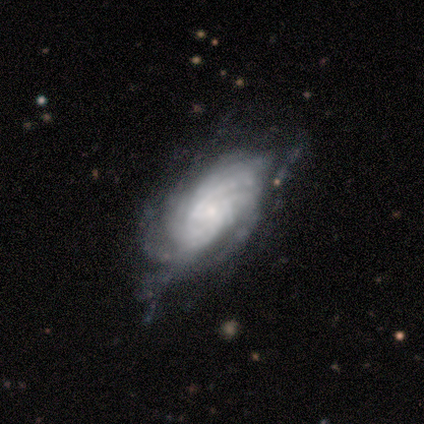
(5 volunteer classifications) Volunteers were most divided on "bar": no: 67%, weak: 33%, strong: 0%. More confident: spiral arms — yes (100%); spiral winding — tight (100%); spiral arm count — can't tell (100%); smooth or featured — featured or disk (80%); edge-on disk — no (75%); bulge size — small (67%); merging — none (60%).